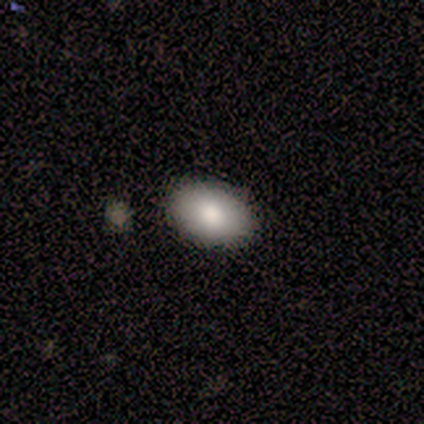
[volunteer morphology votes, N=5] smooth_or_featured: smooth (p=0.80) [alt: featured or disk p=0.20]
how_rounded: in between (p=1.00)
merging: none (p=0.80) [alt: minor disturbance p=0.20]